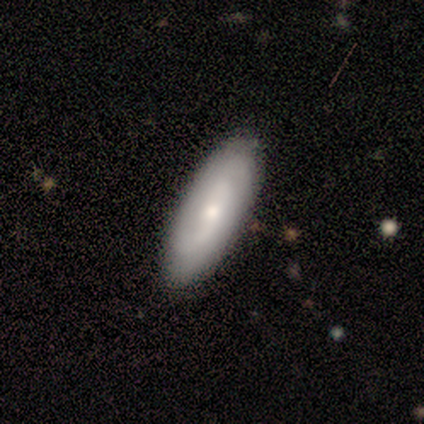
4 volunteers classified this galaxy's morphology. This is clearly a smooth galaxy (100%). How rounded: likely in between (75%). Merging: clearly none (100%).